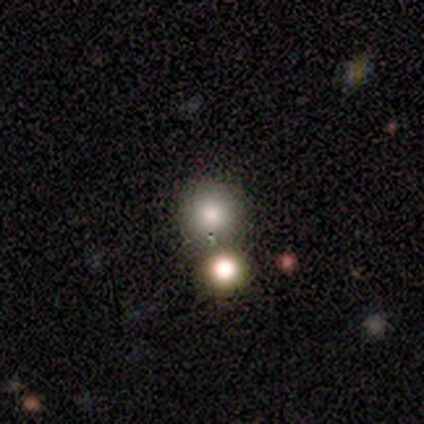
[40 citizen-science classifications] Q: Smooth or featured?
A: smooth (80%); runner-up: featured or disk (12%)
Q: How rounded?
A: round (97%); runner-up: in between (3%)
Q: Merging?
A: none (49%); runner-up: merger (32%)